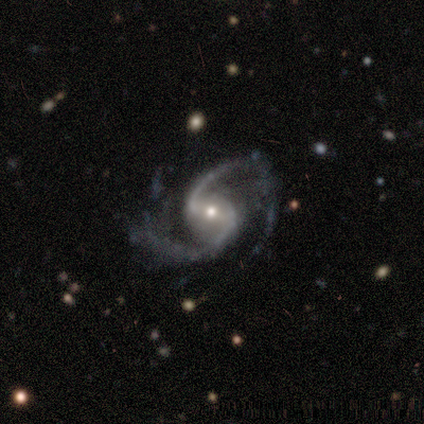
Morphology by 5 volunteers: smooth-or-featured: featured or disk: 100% | smooth: 0% | star or artifact: 0%
  disk-edge-on: no: 100% | yes: 0%
    bar: weak: 60% | strong: 20% | no: 20%
    has-spiral-arms: yes: 100% | no: 0%
      spiral-winding: loose: 80% | medium: 20% | tight: 0%
      spiral-arm-count: 2: 100% | 1: 0% | 3: 0% | 4: 0% | more than 4: 0% | can't tell: 0%
    bulge-size: small: 60% | moderate: 40% | dominant: 0% | large: 0% | none: 0%
  merging: none: 80% | minor disturbance: 20% | major disturbance: 0% | merger: 0%